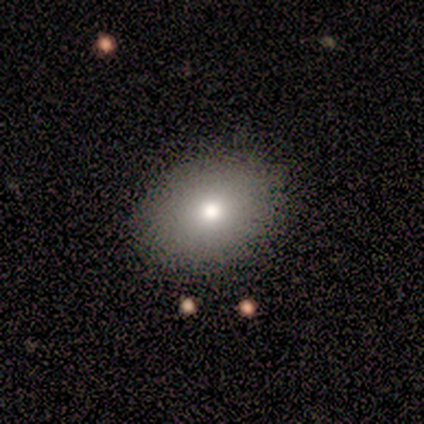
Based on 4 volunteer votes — Q: Smooth or featured?
A: smooth (75%); runner-up: featured or disk (25%)
Q: How rounded?
A: in between (100%)
Q: Merging?
A: none (100%)